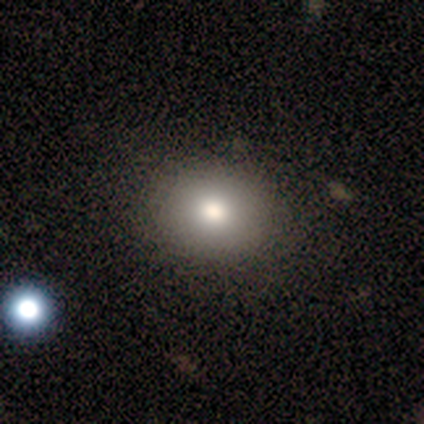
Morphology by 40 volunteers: smooth 80%, star or artifact 15%, featured or disk 5%. Down the decision tree: how rounded — round (66%); merging — none (76%).